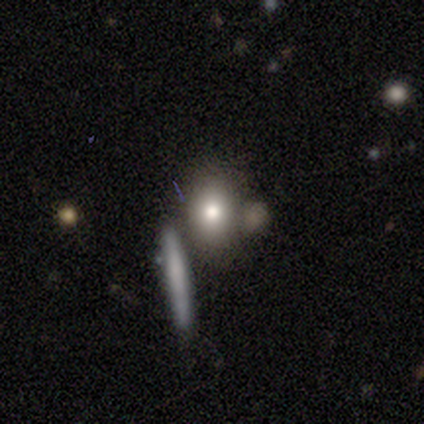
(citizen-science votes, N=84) Smooth or featured? smooth (77%)
How rounded? in between (60%)
Merging? none (56%)